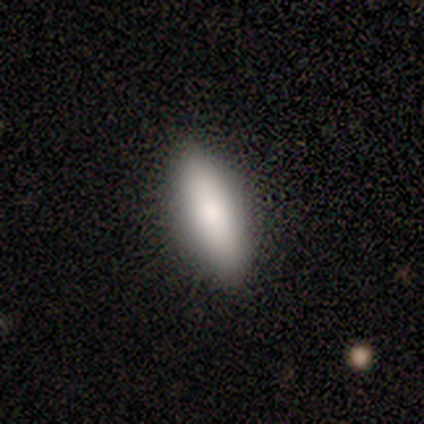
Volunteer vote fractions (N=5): A smooth galaxy with no disk features (100%) that is in between round and cigar-shaped (60%). Merging: none (80%).